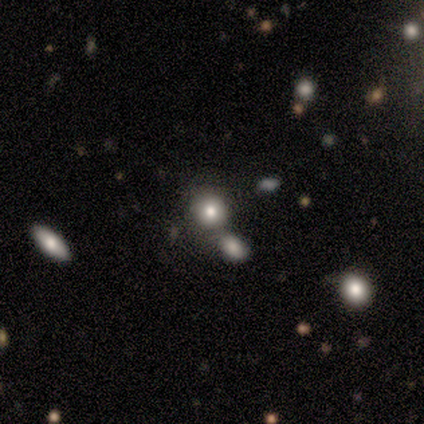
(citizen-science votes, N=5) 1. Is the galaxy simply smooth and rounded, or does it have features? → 80% smooth, 20% star or artifact, 0% featured or disk.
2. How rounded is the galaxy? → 100% round, 0% in between, 0% cigar-shaped.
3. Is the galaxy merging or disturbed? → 50% none (tied), 50% merger (tied), 0% minor disturbance, 0% major disturbance.